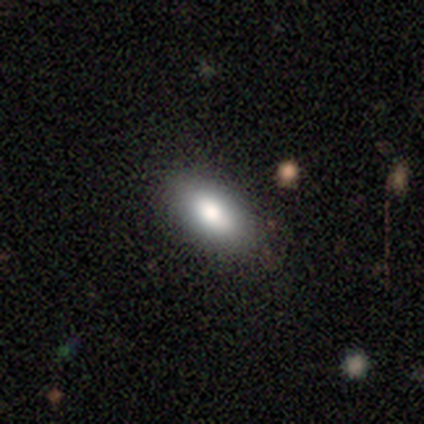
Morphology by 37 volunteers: This is clearly a smooth galaxy (92%). How rounded: clearly in between (94%). Merging: clearly none (97%).